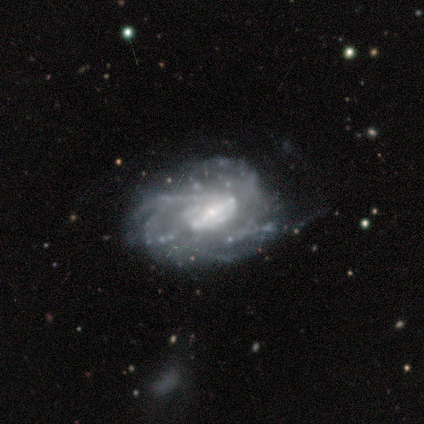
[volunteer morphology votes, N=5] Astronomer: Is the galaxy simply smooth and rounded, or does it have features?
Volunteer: featured or disk — 80%.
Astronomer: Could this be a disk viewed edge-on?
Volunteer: no — 75%.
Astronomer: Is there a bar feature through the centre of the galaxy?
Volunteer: strong — 100%.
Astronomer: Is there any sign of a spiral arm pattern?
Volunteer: yes — 100%.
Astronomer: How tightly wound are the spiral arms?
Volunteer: medium — 67%.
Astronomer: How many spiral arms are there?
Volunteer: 2 — 33%, tied with 3 and can't tell at 33%.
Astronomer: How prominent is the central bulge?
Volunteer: small — 67%.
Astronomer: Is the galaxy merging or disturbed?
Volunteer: none — 80%.